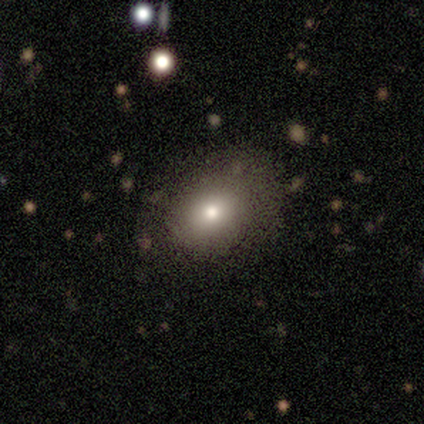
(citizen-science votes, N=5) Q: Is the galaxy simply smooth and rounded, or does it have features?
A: smooth — 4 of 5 (80%).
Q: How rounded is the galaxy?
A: in between — 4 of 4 (100%).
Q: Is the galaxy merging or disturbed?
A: none — 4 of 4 (100%).